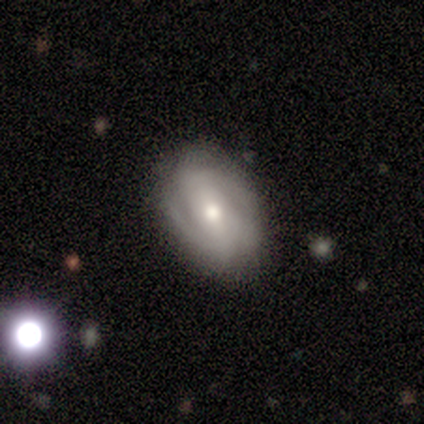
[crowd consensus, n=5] featured or disk 60%, smooth 20%, star or artifact 20%. Down the decision tree: edge-on disk — no (100%); bar — strong (33%, tied with weak and no); spiral arms — yes (67%); spiral arm count — 2 (50%, tied with can't tell); spiral winding — medium (100%); bulge size — moderate (67%); merging — none (100%).